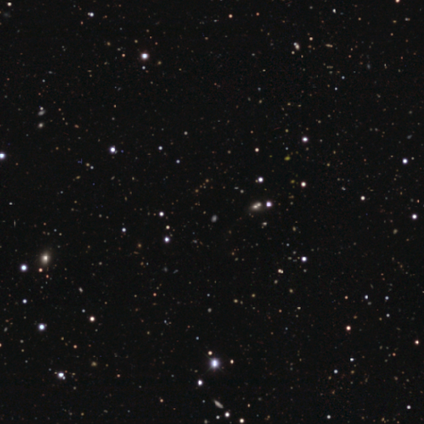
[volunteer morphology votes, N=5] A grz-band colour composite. It shows a star or artifact, not a galaxy (60%).